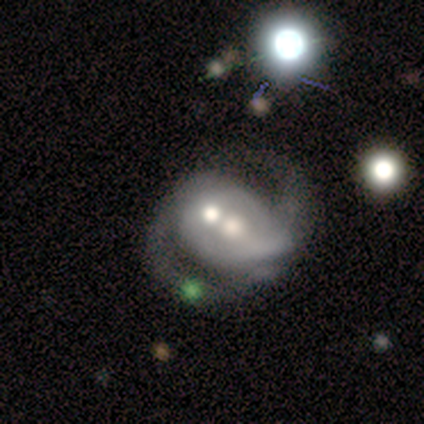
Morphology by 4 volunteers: Q: Smooth or featured?
A: featured or disk (100%)
Q: Edge-on disk?
A: no (100%)
Q: Bar?
A: weak (50%); tied with: no (50%)
Q: Spiral arms?
A: yes (100%)
Q: Spiral winding?
A: medium (50%); tied with: loose (50%)
Q: Spiral arm count?
A: 2 (75%); runner-up: can't tell (25%)
Q: Bulge size?
A: moderate (100%)
Q: Merging?
A: major disturbance (50%); runner-up: none (25%)